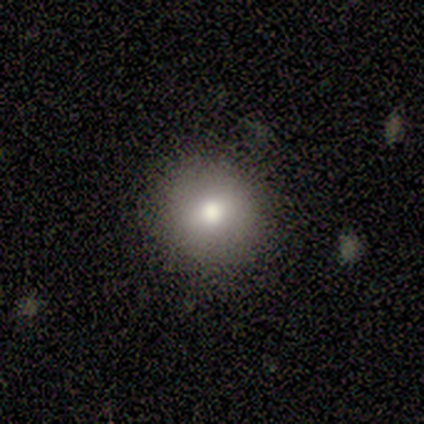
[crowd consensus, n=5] Smooth or featured: smooth — 80% (featured or disk — 20%)
How rounded: round — 100%
Merging: none — 100%